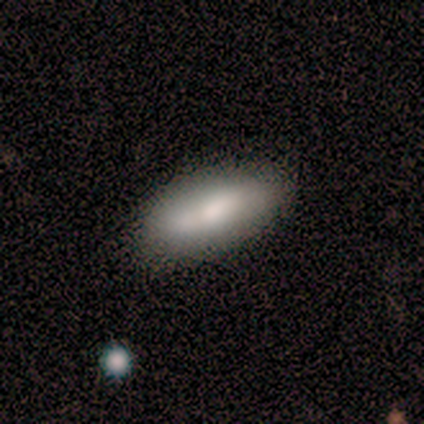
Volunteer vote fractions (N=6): Volunteers were most divided on "merging": none: 67%, minor disturbance: 17%, major disturbance: 17%, merger: 0%. More confident: smooth or featured — smooth (83%); how rounded — in between (80%).